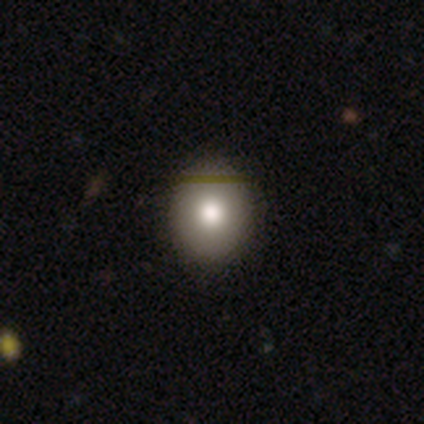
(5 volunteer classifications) Smooth or featured?
  - smooth: 80% *
  - star or artifact: 20%
  - featured or disk: 0%
How rounded?
  - round: 50% * (tied)
  - in between: 50% * (tied)
  - cigar-shaped: 0%
Merging?
  - none: 100% *
  - minor disturbance: 0%
  - major disturbance: 0%
  - merger: 0%